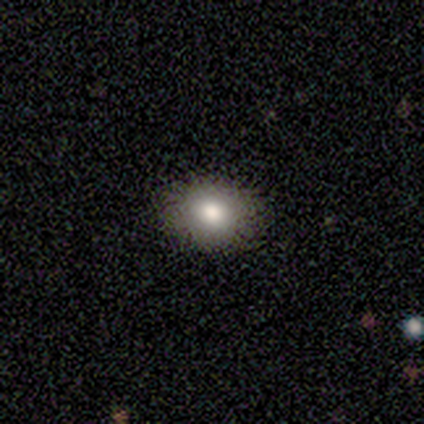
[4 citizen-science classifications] Smooth or featured? smooth (75%)
How rounded? round (67%)
Merging? none (100%)